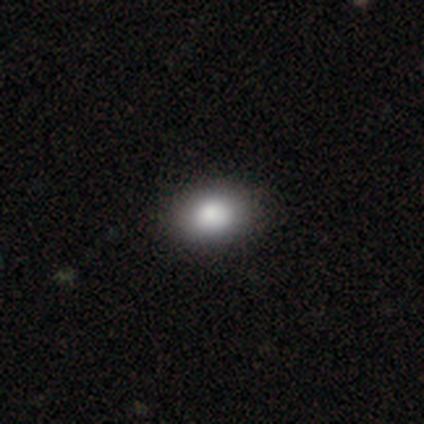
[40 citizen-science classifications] Smooth or featured? 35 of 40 (88%) said smooth. How rounded? 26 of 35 (74%) said in between. Merging? 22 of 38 (58%) said none.